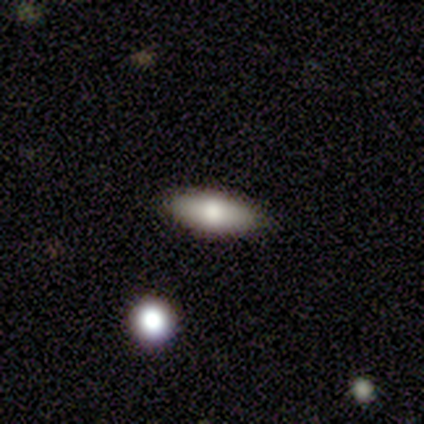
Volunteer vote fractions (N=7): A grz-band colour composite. It shows a smooth galaxy with no disk features (71%) that is in between round and cigar-shaped (80%). Merging: none (83%).